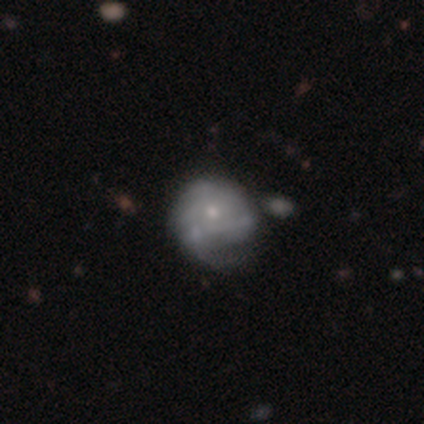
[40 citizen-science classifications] A featured or disk galaxy (60%) with no bar (88%), tight (56%) spiral arms (67%) and a small central bulge (54%).

Vote fractions:
- Smooth or featured? featured or disk: 60% / smooth: 32% / star or artifact: 8%
- Edge-on disk? no: 100% / yes: 0%
- Bar? no: 88% / weak: 12% / strong: 0%
- Spiral arms? yes: 67% / no: 33%
- Spiral winding? tight: 56% / medium: 31% / loose: 12%
- Spiral arm count? can't tell: 56% / 1: 12% / 4: 12% / 2: 6% / 3: 6% / more than 4: 6%
- Bulge size? small: 54% / moderate: 46% / dominant: 0% / large: 0% / none: 0%
- Merging? none: 24% / major disturbance: 22% / minor disturbance: 19% / merger: 11%